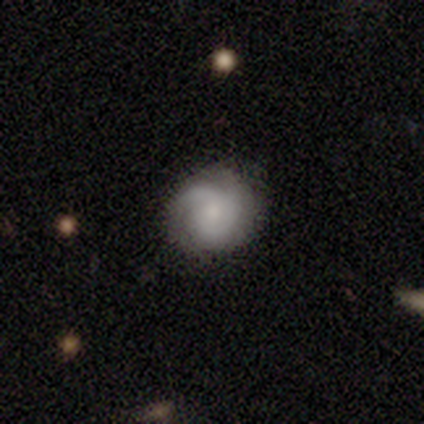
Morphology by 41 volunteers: Smooth or featured: featured or disk — 59% (smooth — 37%)
Edge-on disk: no — 100%
Bar: no — 75% (weak — 25%)
Spiral arms: yes — 92% (no — 8%)
Spiral winding: tight — 64% (medium — 27%)
Spiral arm count: 2 — 36% (can't tell — 32%)
Bulge size: small — 58% (none — 17%)
Merging: none — 56% (minor disturbance — 38%)